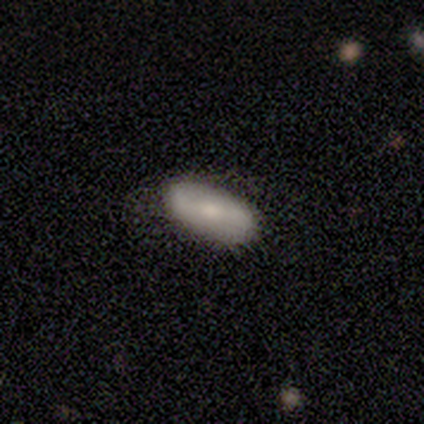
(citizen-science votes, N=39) Smooth or featured? smooth (67%)
How rounded? in between (92%)
Merging? none (78%)